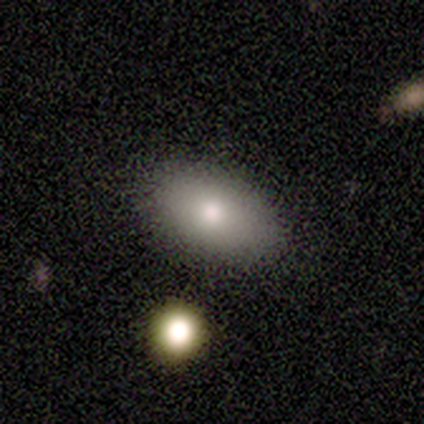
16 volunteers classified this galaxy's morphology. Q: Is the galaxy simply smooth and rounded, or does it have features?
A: smooth — 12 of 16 (75%).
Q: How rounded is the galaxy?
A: in between — 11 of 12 (92%).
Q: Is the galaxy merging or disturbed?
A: none — 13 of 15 (87%).